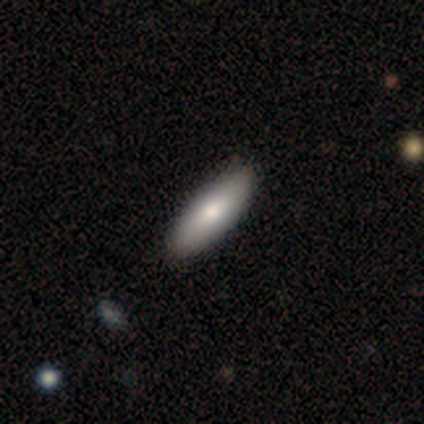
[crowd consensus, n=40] Smooth or featured? 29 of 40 (72%) said smooth. How rounded? 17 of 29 (59%) said in between. Merging? 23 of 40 (57%) said none.